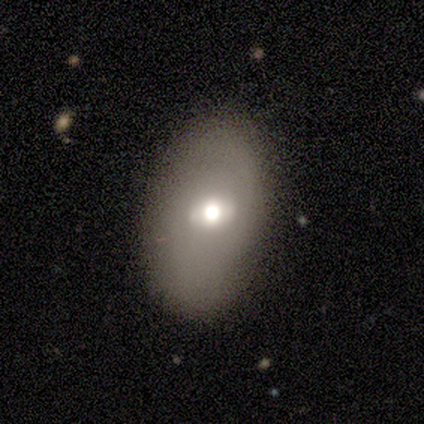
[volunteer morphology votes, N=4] type=smooth (75%); roundness=in between (100%); merging=none (50%, tied with minor disturbance).